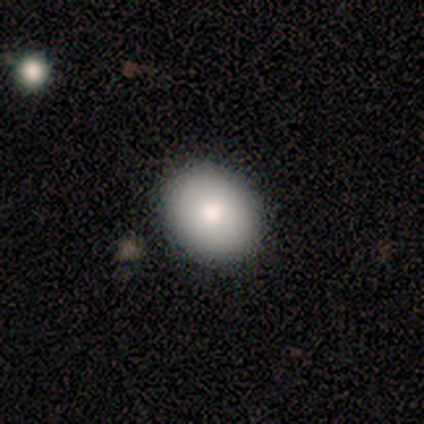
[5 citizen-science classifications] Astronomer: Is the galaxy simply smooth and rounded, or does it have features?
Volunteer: smooth — 80%.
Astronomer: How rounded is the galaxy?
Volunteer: round — 75%.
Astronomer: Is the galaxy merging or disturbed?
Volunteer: none — 100%.